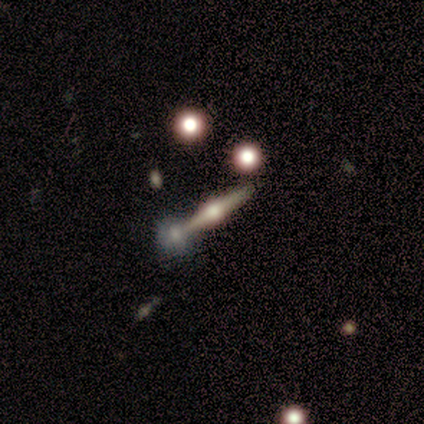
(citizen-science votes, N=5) smooth_or_featured: featured or disk (p=0.60) [alt: smooth p=0.20]
disk_edge_on: yes (p=1.00)
edge_on_bulge: rounded (p=1.00)
merging: none (p=0.75) [alt: major disturbance p=0.25]